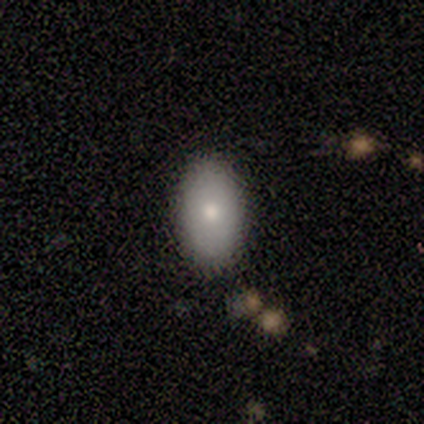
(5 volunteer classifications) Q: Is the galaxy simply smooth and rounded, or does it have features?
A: smooth — 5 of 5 (100%).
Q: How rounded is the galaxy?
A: in between — 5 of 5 (100%).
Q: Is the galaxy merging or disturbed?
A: none — 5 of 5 (100%).